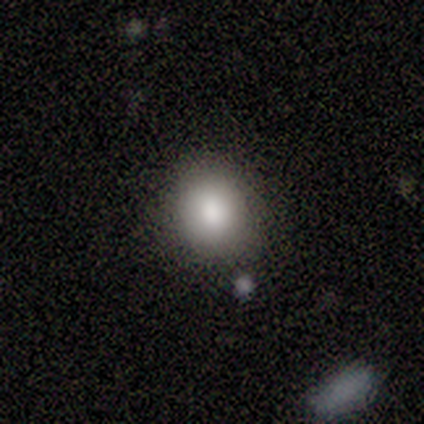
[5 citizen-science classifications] This is clearly a smooth galaxy (80%). How rounded: likely round (75%). Merging: likely none (75%).